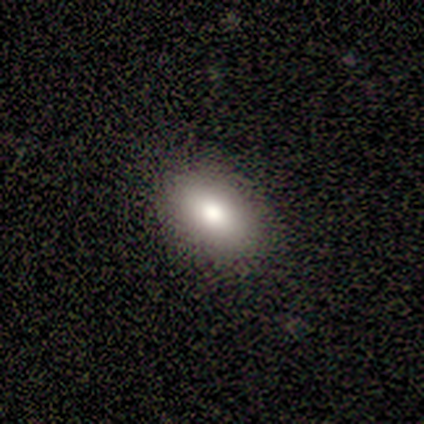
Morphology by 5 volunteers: A smooth galaxy with no disk features (60%) that is in between round and cigar-shaped (67%). Merging: none (100%).